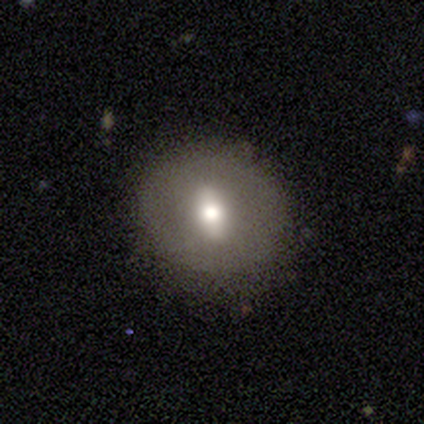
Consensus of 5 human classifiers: Smooth or featured?
  - featured or disk: 60% *
  - smooth: 40%
  - star or artifact: 0%
Edge-on disk?
  - yes: 67% *
  - no: 33%
Edge-on bulge?
  - none: 50% * (tied)
  - rounded: 50% * (tied)
  - boxy: 0%
Merging?
  - none: 100% *
  - minor disturbance: 0%
  - major disturbance: 0%
  - merger: 0%